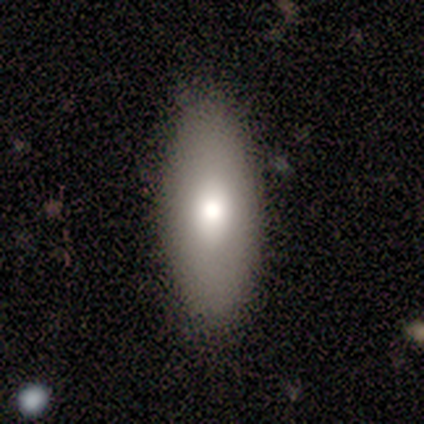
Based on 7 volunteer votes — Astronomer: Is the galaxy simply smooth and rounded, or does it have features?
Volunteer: smooth — 100%.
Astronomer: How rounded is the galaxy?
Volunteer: in between — 86%.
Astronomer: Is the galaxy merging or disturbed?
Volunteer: none — 86%.